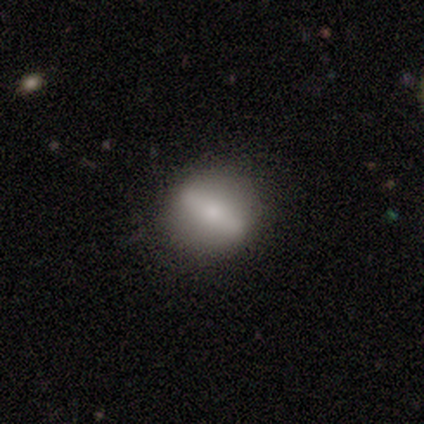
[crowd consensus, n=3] A smooth galaxy with no disk features (100%) that is round (67%).

Vote fractions:
- Smooth or featured? smooth: 100% / featured or disk: 0% / star or artifact: 0%
- How rounded? round: 67% / cigar-shaped: 33% / in between: 0%
- Merging? none: 67% / minor disturbance: 33% / major disturbance: 0% / merger: 0%